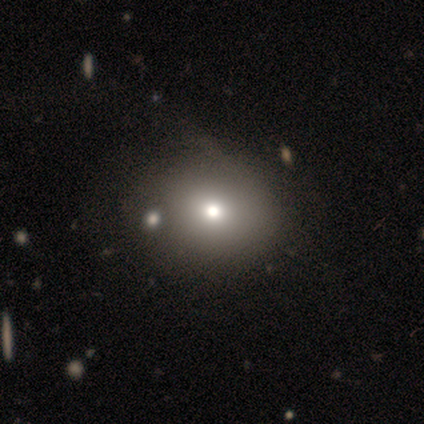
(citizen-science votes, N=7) Smooth or featured? smooth (43%)
How rounded? round (67%)
Merging? none (60%)